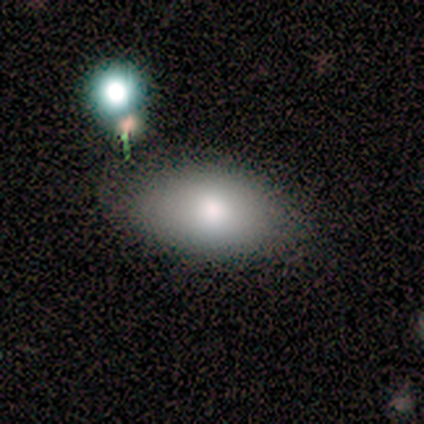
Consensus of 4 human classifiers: This appears to be a smooth galaxy with no disk features (100%) that is in between round and cigar-shaped (100%). Merging: none (75%).